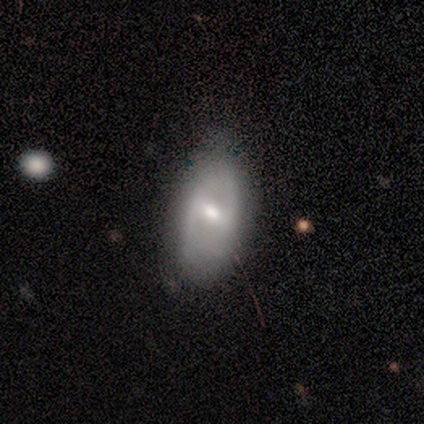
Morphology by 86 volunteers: Smooth or featured? featured or disk (51%)
Edge-on disk? no (93%)
Bar? weak (46%)
Spiral arms? no (59%)
Bulge size? small (51%)
Merging? none (59%)